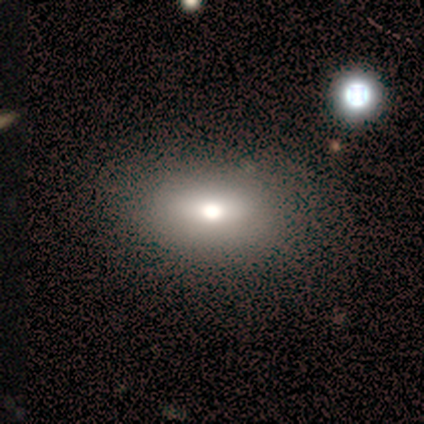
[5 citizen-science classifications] smooth_or_featured: featured or disk (p=0.60) [alt: smooth p=0.40]
disk_edge_on: no (p=1.00)
bar: strong (p=0.33) [tied with: weak p=0.33, no p=0.33]
has_spiral_arms: no (p=1.00)
bulge_size: moderate (p=0.67) [alt: large p=0.33]
merging: minor disturbance (p=0.60) [alt: none p=0.40]